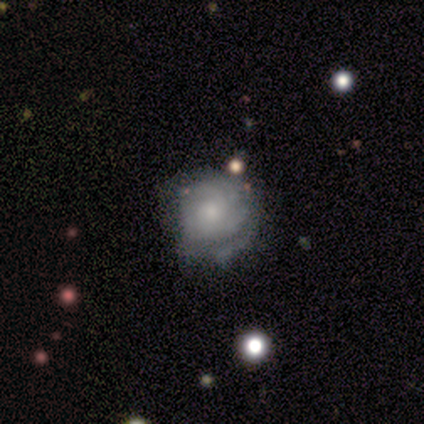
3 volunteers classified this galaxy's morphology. Smooth or featured? 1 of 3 (33%, tied with featured or disk and star or artifact) said smooth. How rounded? 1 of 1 (100%) said round. Merging? 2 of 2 (100%) said none.